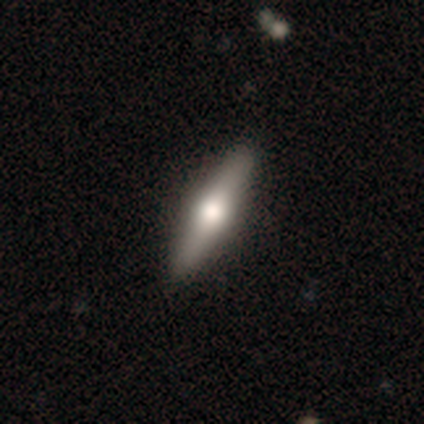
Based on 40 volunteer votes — featured or disk 52%, smooth 48%, star or artifact 0%. Down the decision tree: edge-on disk — yes (95%); edge-on bulge — rounded (100%); merging — none (62%).